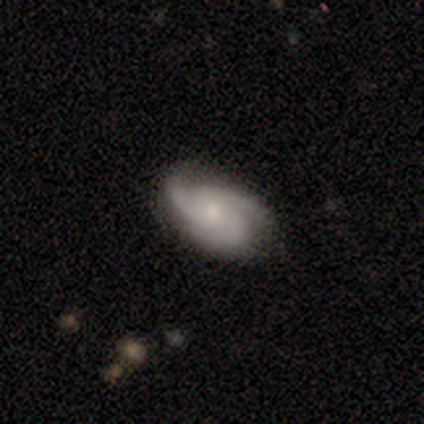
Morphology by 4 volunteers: This appears to be a featured or disk galaxy (100%) with a weak bar (67%), 3 (100%) medium (67%) spiral arms (100%) and a moderate central bulge (67%). Merging: none (75%).